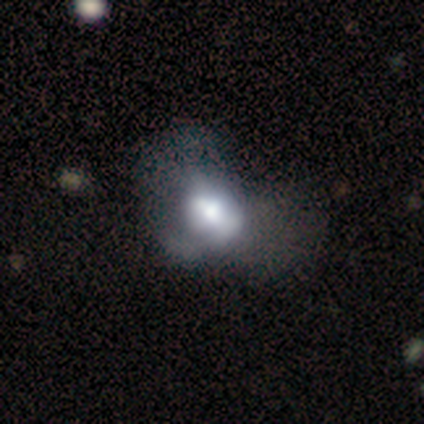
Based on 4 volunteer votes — This appears to be a smooth galaxy with no disk features (50%, tied with featured or disk) that is round (50%, tied with in between). Merging: none (50%, tied with major disturbance).